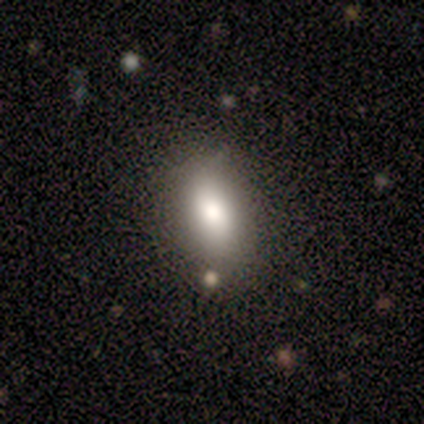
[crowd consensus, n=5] A smooth galaxy with no disk features (80%) that is in between round and cigar-shaped (100%). Merging: none (80%).